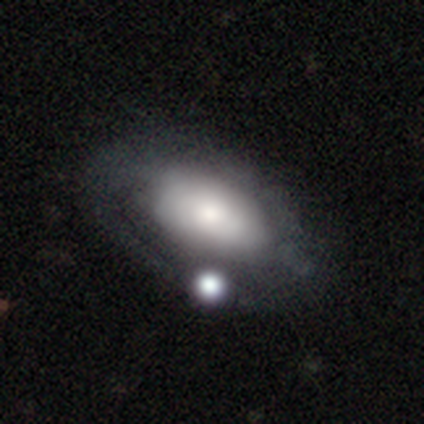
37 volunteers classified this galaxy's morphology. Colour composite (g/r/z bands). It shows a featured or disk galaxy (54%) with no bar (78%), medium (58%) spiral arms (67%) and a moderate central bulge (50%). Merging: none (43%).